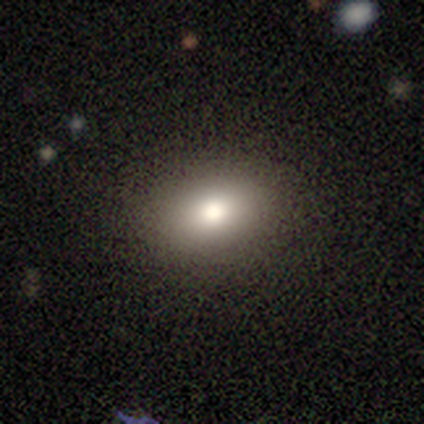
Smooth or featured?
  - smooth: 84% *
  - featured or disk: 14%
  - star or artifact: 3%
How rounded?
  - in between: 81% *
  - round: 19%
  - cigar-shaped: 0%
Merging?
  - none: 92% *
  - major disturbance: 6%
  - minor disturbance: 3%
  - merger: 0%